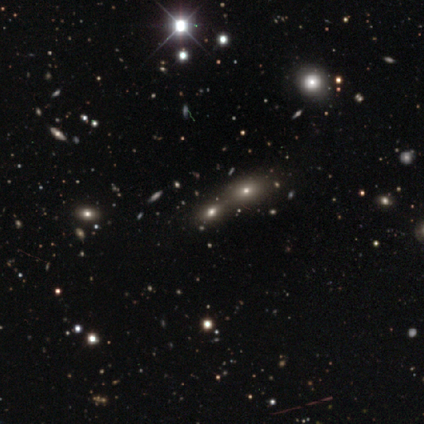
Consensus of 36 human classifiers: A star or artifact, not a galaxy (47%).

Vote fractions:
- Smooth or featured? star or artifact: 47% / smooth: 36% / featured or disk: 17%